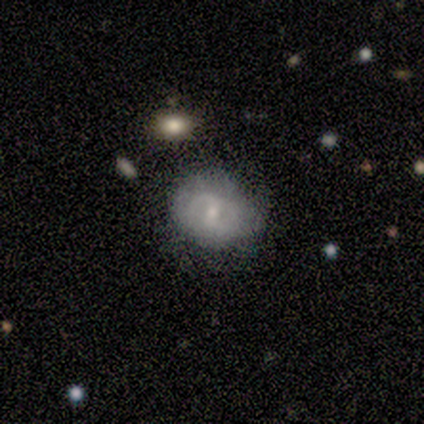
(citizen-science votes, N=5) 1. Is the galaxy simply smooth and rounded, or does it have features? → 60% featured or disk, 40% smooth, 0% star or artifact.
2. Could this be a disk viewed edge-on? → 100% no, 0% yes.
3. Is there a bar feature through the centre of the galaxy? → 67% weak, 33% no, 0% strong.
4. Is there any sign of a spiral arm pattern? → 67% no, 33% yes.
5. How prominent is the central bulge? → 67% small, 33% moderate, 0% dominant, 0% large, 0% none.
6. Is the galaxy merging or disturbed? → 100% none, 0% minor disturbance, 0% major disturbance, 0% merger.